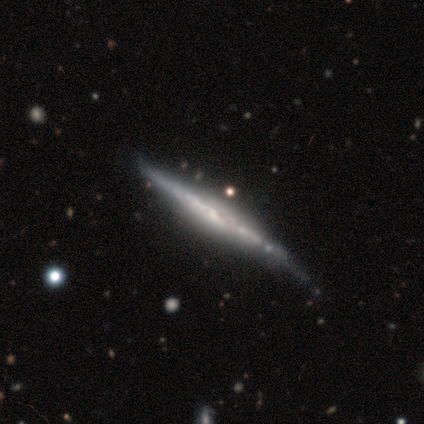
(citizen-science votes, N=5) smooth_or_featured: featured or disk (p=0.80) [alt: smooth p=0.20]
disk_edge_on: yes (p=1.00)
edge_on_bulge: none (p=0.75) [alt: boxy p=0.25]
merging: none (p=0.80) [alt: minor disturbance p=0.20]